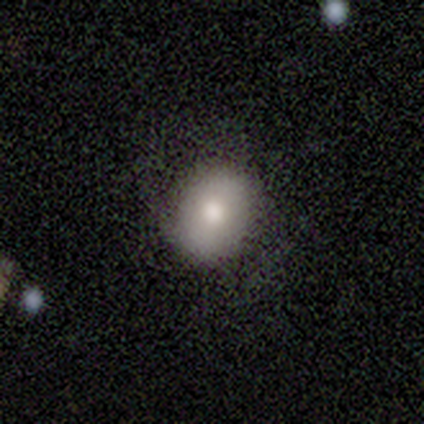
A smooth galaxy with no disk features (60%) that is in between round and cigar-shaped (67%).

Vote fractions:
- Smooth or featured? smooth: 60% / featured or disk: 40% / star or artifact: 0%
- How rounded? in between: 67% / round: 33% / cigar-shaped: 0%
- Merging? none: 80% / minor disturbance: 20% / major disturbance: 0% / merger: 0%